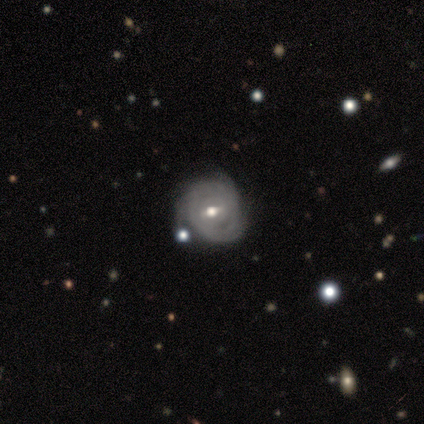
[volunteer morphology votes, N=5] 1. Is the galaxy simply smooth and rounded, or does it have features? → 80% featured or disk, 20% smooth, 0% star or artifact.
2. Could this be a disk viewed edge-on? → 100% no, 0% yes.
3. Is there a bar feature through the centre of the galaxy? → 75% weak, 25% no, 0% strong.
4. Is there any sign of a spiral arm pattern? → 100% yes, 0% no.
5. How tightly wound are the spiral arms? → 75% tight, 25% medium, 0% loose.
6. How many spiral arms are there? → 50% 1, 25% 3, 25% can't tell, 0% 2, 0% 4, 0% more than 4.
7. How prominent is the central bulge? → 75% moderate, 25% small, 0% dominant, 0% large, 0% none.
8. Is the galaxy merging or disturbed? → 60% none, 20% minor disturbance, 20% major disturbance, 0% merger.